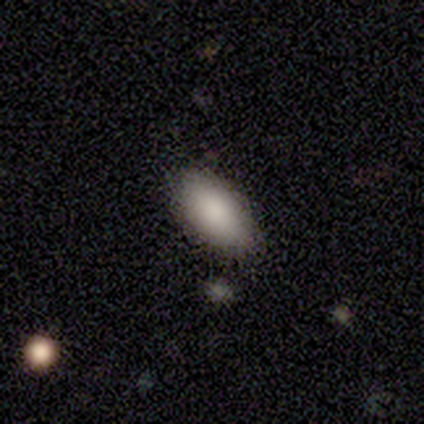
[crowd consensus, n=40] Morphology: type=smooth (85%); roundness=in between (94%); merging=none (84%).